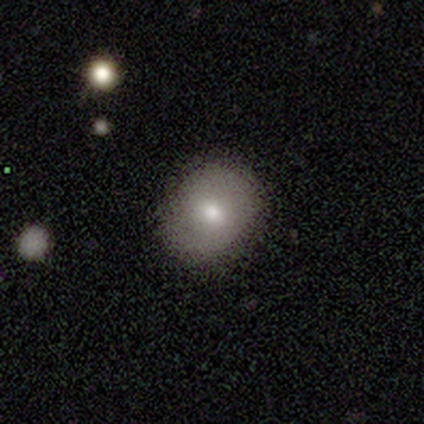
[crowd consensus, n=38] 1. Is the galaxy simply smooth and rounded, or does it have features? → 74% smooth, 13% featured or disk, 13% star or artifact.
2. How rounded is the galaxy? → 68% round, 32% in between, 0% cigar-shaped.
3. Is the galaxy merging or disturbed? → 67% none, 3% minor disturbance, 3% major disturbance, 0% merger.